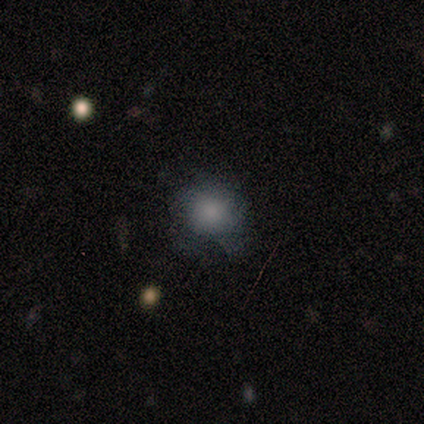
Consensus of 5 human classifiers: Overall: smooth (100%). How rounded: round (60%; in between 40%). Merging: minor disturbance (60%; none 40%).